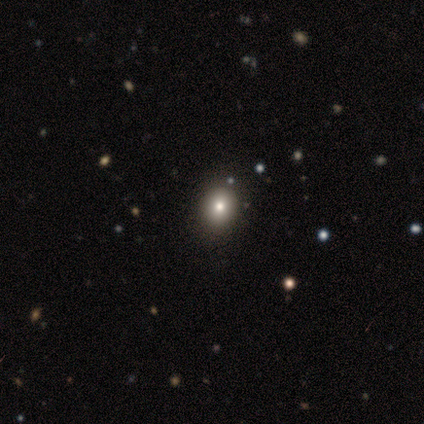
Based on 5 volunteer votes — A smooth galaxy with no disk features (80%) that is round (50%, tied with in between). Merging: none (75%).